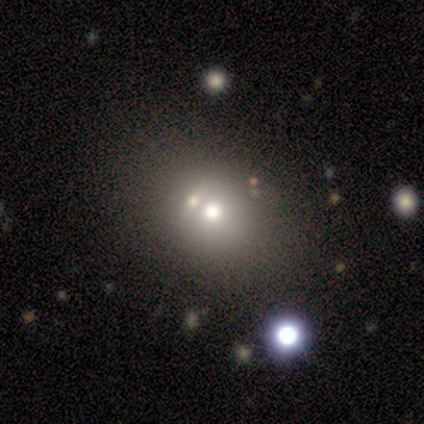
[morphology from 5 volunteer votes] smooth_or_featured: smooth (p=0.60) [alt: star or artifact p=0.40]
how_rounded: round (p=0.67) [alt: in between p=0.33]
merging: merger (p=0.67) [alt: none p=0.33]